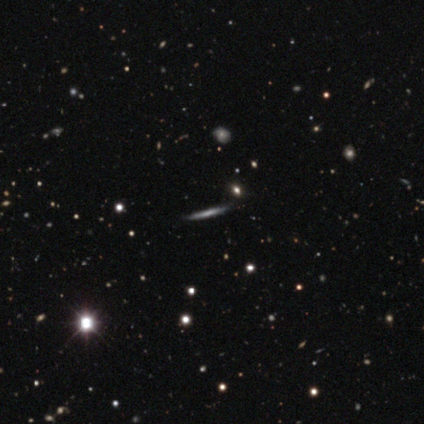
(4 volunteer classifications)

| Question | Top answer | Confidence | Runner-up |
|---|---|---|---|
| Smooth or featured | smooth | 50% | tied: featured or disk (50%) |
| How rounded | cigar-shaped | 100% | — |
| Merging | none | 75% | minor disturbance (25%) |